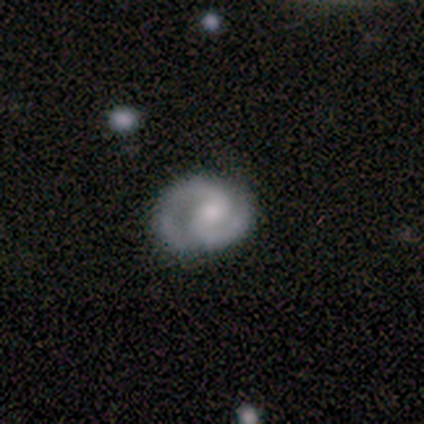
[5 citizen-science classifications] This appears to be a featured or disk galaxy (100%) with no bar (60%), 2 (100%) tight (40%, tied with medium) spiral arms (100%) and a moderate central bulge (80%). Merging: none (40%, tied with minor disturbance).